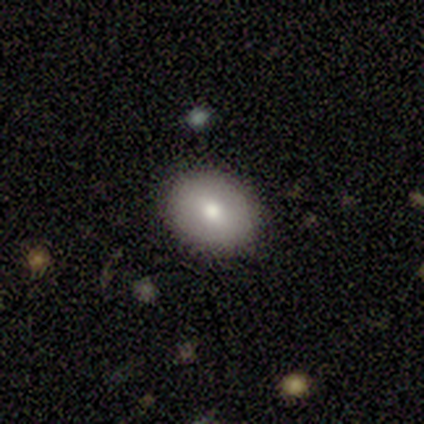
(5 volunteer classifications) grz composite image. It shows a smooth galaxy with no disk features (80%) that is in between round and cigar-shaped (75%). Merging: none (80%).